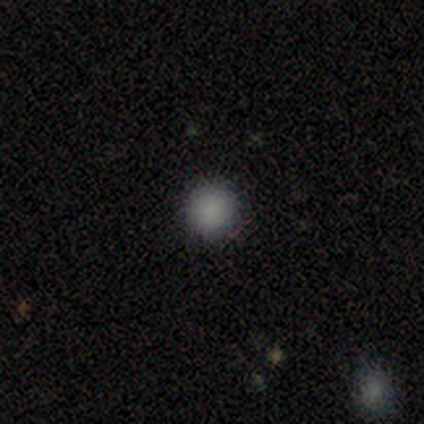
A smooth galaxy with no disk features (80%) that is round (100%).

Vote fractions:
- Smooth or featured? smooth: 80% / featured or disk: 20% / star or artifact: 0%
- How rounded? round: 100% / in between: 0% / cigar-shaped: 0%
- Merging? none: 100% / minor disturbance: 0% / major disturbance: 0% / merger: 0%